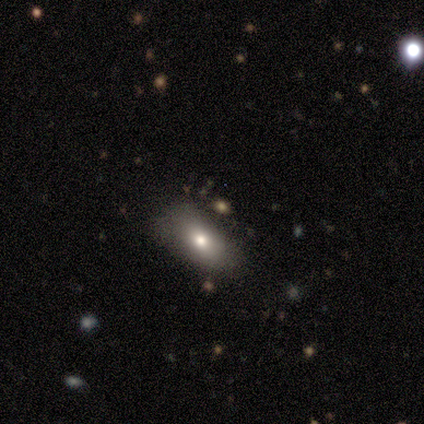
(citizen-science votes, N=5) Smooth or featured? smooth (80%)
How rounded? in between (75%)
Merging? none (60%)